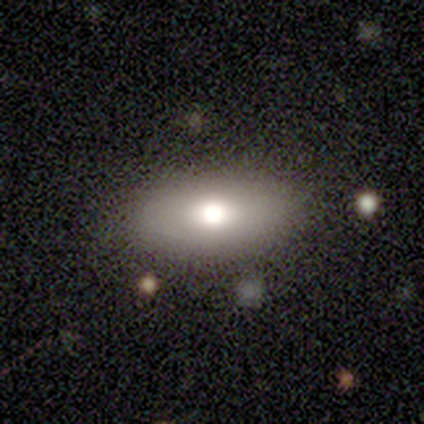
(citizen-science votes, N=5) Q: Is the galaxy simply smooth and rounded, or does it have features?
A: smooth — 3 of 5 (60%).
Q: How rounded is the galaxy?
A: in between — 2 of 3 (67%).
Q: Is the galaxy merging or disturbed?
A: none — 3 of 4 (75%).